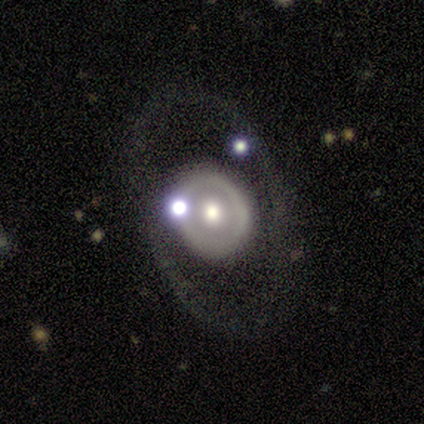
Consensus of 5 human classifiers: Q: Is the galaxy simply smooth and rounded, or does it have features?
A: featured or disk — 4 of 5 (80%).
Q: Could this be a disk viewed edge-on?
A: no — 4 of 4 (100%).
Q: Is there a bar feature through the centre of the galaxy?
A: no — 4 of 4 (100%).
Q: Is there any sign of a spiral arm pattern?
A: no — 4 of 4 (100%).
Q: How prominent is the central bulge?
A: moderate — 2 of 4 (50%, tied with small).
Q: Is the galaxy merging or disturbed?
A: none — 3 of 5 (60%).